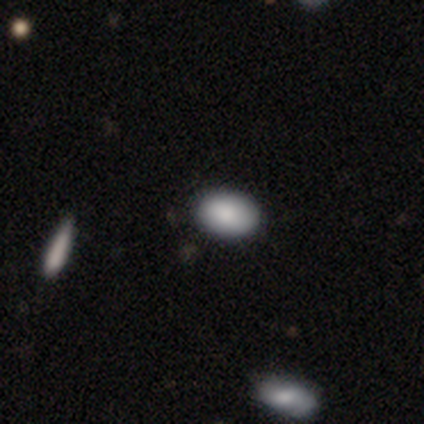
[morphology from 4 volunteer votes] This appears to be a smooth galaxy with no disk features (75%) that is in between round and cigar-shaped (67%). Merging: none (100%).